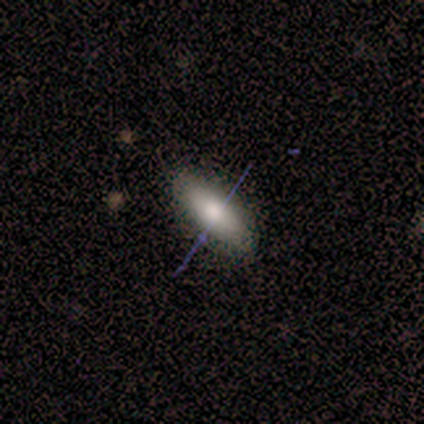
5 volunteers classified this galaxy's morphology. type=smooth (80%); roundness=in between (50%, tied with cigar-shaped); merging=none (75%).